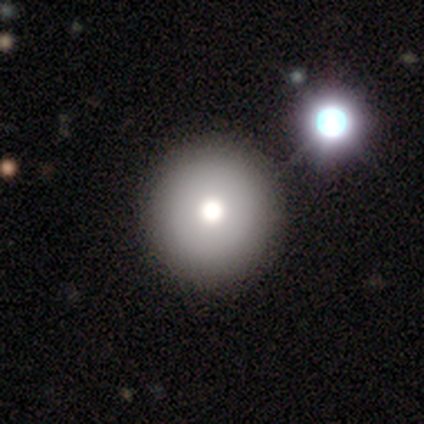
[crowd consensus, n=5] smooth 60%, featured or disk 20%, star or artifact 20%. Down the decision tree: how rounded — round (67%); merging — none (75%).